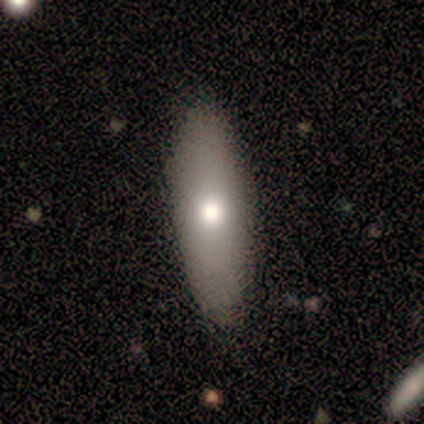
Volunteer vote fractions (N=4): Smooth or featured: smooth — 100%
How rounded: in between — 75% (cigar-shaped — 25%)
Merging: none — 100%